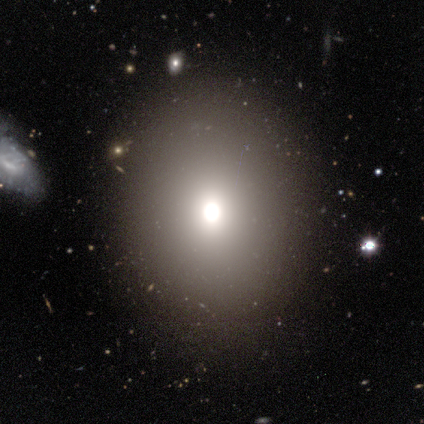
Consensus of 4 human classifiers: Smooth or featured? smooth (50%)
How rounded? round (100%)
Merging? none (67%)